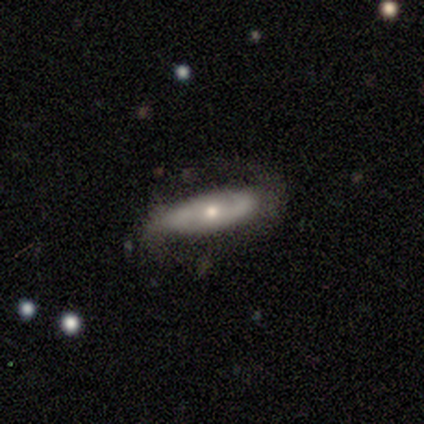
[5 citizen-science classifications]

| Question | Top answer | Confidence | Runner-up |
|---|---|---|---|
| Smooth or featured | smooth | 60% | featured or disk (20%) |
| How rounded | in between | 100% | — |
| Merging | none | 75% | minor disturbance (25%) |